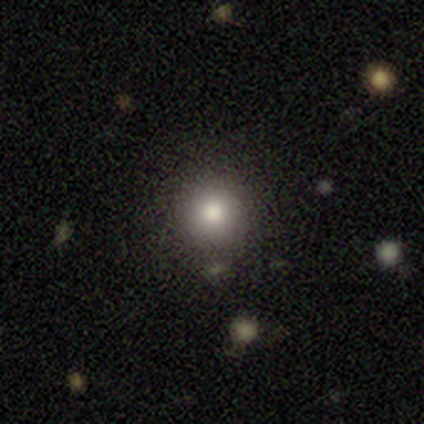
Smooth or featured? 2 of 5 (40%, tied with star or artifact) said featured or disk. Edge-on disk? 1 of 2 (50%, tied with no) said yes. Edge-on bulge? 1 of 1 (100%) said boxy. Merging? 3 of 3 (100%) said none.